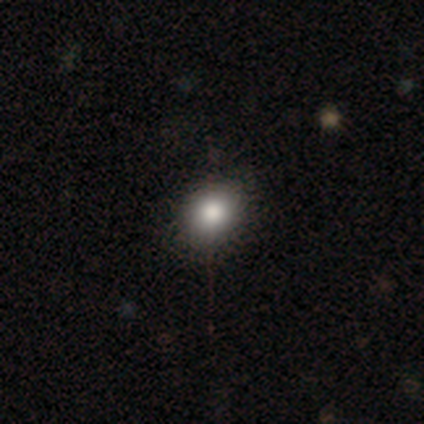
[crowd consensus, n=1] A smooth galaxy with no disk features (100%) that is round (100%).

Vote fractions:
- Smooth or featured? smooth: 100% / featured or disk: 0% / star or artifact: 0%
- How rounded? round: 100% / in between: 0% / cigar-shaped: 0%
- Merging? none: 100% / minor disturbance: 0% / major disturbance: 0% / merger: 0%